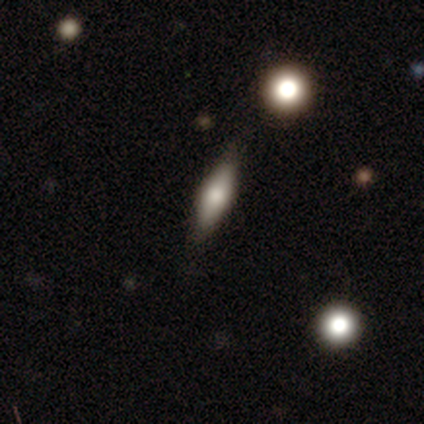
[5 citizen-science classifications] This is clearly a smooth galaxy (80%). How rounded: possibly cigar-shaped (50%). Merging: clearly none (100%).